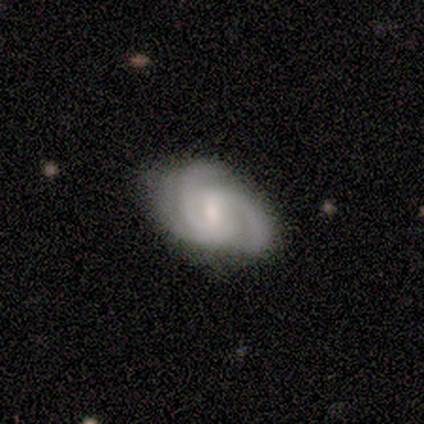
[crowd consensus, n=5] A featured or disk galaxy (80%) with no bar (75%), 3 (100%) medium (50%) spiral arms (100%) and a small central bulge (75%).

Vote fractions:
- Smooth or featured? featured or disk: 80% / smooth: 20% / star or artifact: 0%
- Edge-on disk? no: 100% / yes: 0%
- Bar? no: 75% / strong: 25% / weak: 0%
- Spiral arms? yes: 100% / no: 0%
- Spiral winding? medium: 50% / tight: 25% / loose: 25%
- Spiral arm count? 3: 100% / 1: 0% / 2: 0% / 4: 0% / more than 4: 0% / can't tell: 0%
- Bulge size? small: 75% / large: 25% / dominant: 0% / moderate: 0% / none: 0%
- Merging? none: 60% / minor disturbance: 20% / major disturbance: 20% / merger: 0%